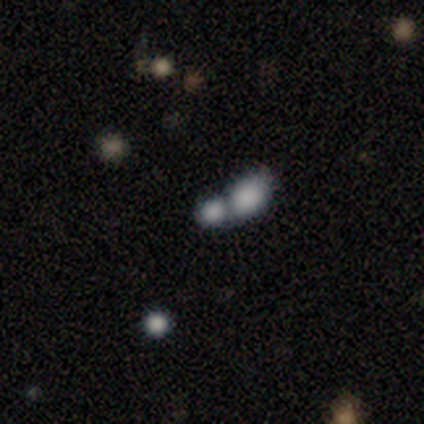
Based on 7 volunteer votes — Smooth or featured? 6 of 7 (86%) said smooth. How rounded? 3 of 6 (50%, tied with in between) said round. Merging? 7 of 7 (100%) said merger.